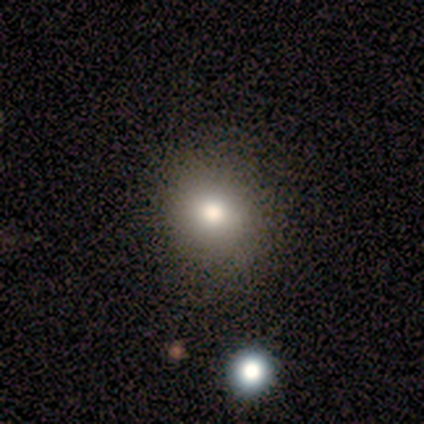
A smooth galaxy with no disk features (80%) that is round (75%).

Vote fractions:
- Smooth or featured? smooth: 80% / featured or disk: 20% / star or artifact: 0%
- How rounded? round: 75% / in between: 25% / cigar-shaped: 0%
- Merging? none: 80% / minor disturbance: 20% / major disturbance: 0% / merger: 0%